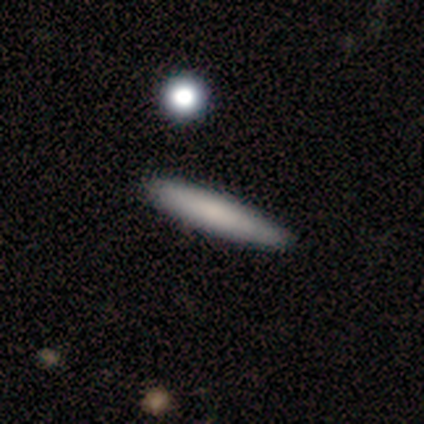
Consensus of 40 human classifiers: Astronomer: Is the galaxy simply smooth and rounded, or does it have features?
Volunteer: smooth — 82%.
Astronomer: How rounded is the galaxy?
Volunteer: cigar-shaped — 97%.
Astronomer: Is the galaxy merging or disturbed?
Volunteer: none — 77%.